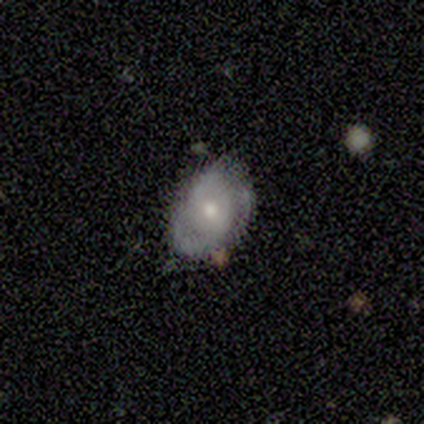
smooth-or-featured: smooth: 67% | featured or disk: 33% | star or artifact: 0%
  how-rounded: in between: 100% | round: 0% | cigar-shaped: 0%
  merging: none: 67% | major disturbance: 33% | minor disturbance: 0% | merger: 0%